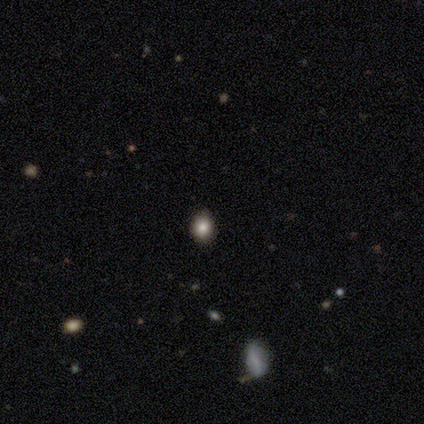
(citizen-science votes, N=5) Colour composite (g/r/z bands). It shows a smooth galaxy with no disk features (80%) that is round (75%). Merging: none (100%).